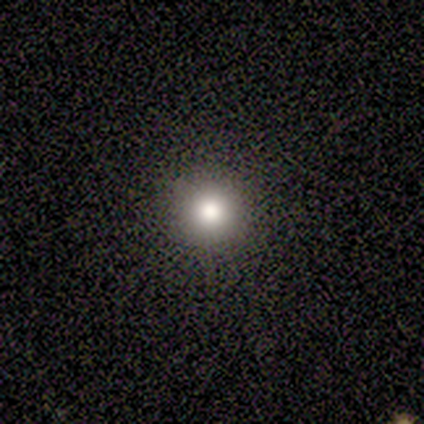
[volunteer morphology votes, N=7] Smooth or featured? smooth (71%)
How rounded? round (80%)
Merging? none (80%)